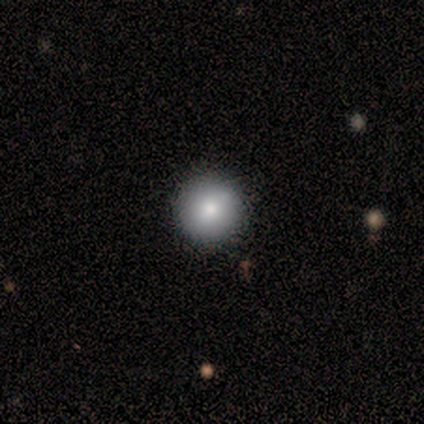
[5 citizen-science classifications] Smooth or featured: smooth — 100%
How rounded: round — 100%
Merging: none — 100%